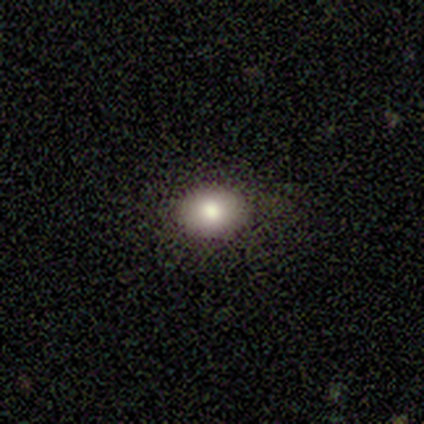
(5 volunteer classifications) Smooth or featured: smooth — 80% (featured or disk — 20%)
How rounded: round — 50% (tied with in between — 50%)
Merging: none — 100%